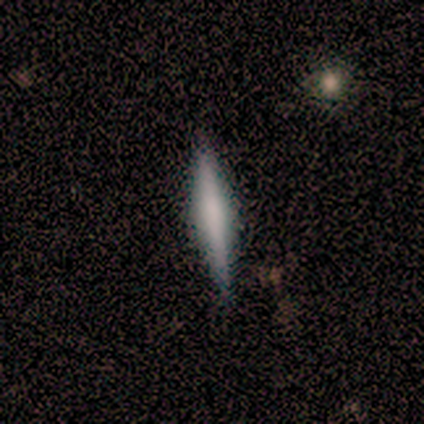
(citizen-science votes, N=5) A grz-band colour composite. It shows a star or artifact, not a galaxy (60%).